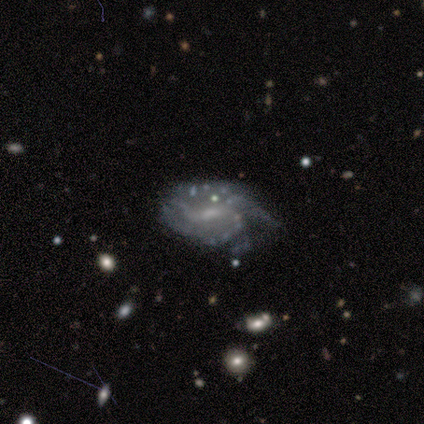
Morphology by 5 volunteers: Smooth or featured: featured or disk — 100%
Edge-on disk: no — 100%
Bar: no — 60% (weak — 40%)
Spiral arms: yes — 100%
Spiral winding: tight — 80% (loose — 20%)
Spiral arm count: 2 — 60% (3 — 20%)
Bulge size: small — 100%
Merging: none — 60% (minor disturbance — 20%)